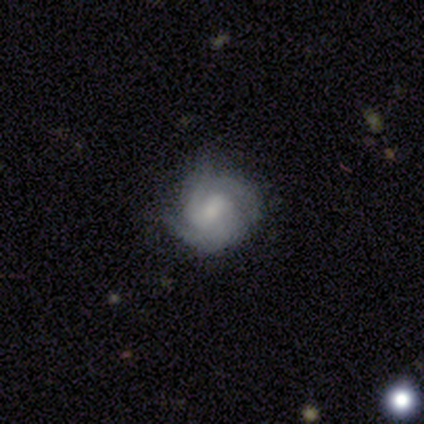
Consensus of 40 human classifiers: This appears to be a featured or disk galaxy (88%) with a weak bar (54%), 2 (42%) tight (58%) spiral arms (94%) and a moderate central bulge (43%). Merging: none (68%).